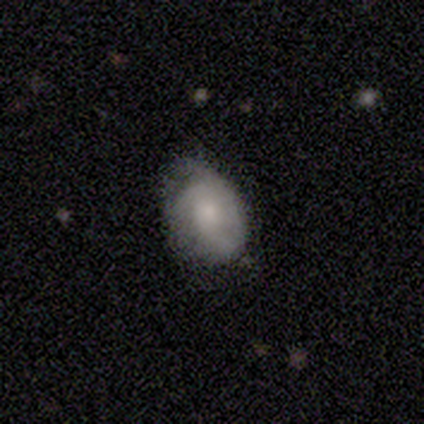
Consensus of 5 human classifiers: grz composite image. It shows a smooth galaxy with no disk features (60%) that is in between round and cigar-shaped (100%). Merging: minor disturbance (60%).